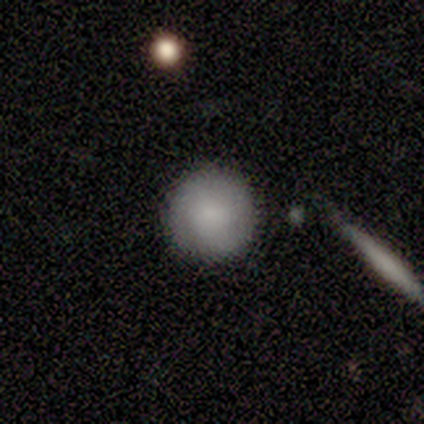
This appears to be a smooth galaxy with no disk features (80%) that is round (100%). Merging: none (100%).